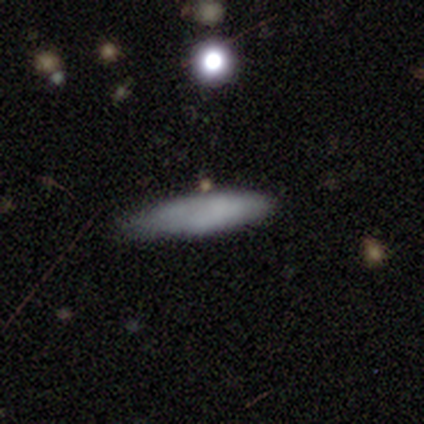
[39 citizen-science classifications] smooth_or_featured: smooth (p=0.79) [alt: featured or disk p=0.10]
how_rounded: cigar-shaped (p=0.84) [alt: in between p=0.16]
merging: none (p=0.74) [alt: minor disturbance p=0.23]